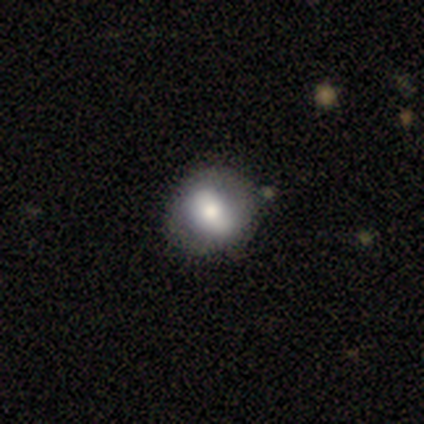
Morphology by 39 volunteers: Smooth or featured: featured or disk — 54% (smooth — 44%)
Edge-on disk: no — 95% (yes — 5%)
Bar: strong — 40% (weak — 35%)
Spiral arms: no — 80% (yes — 20%)
Bulge size: moderate — 70% (large — 25%)
Merging: none — 76% (minor disturbance — 5%)